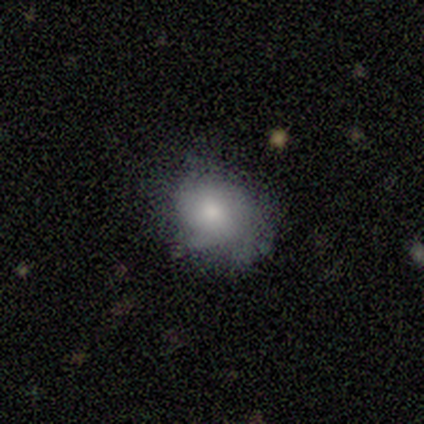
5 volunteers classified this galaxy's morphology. type=smooth (60%); roundness=in between (67%); merging=none (100%).